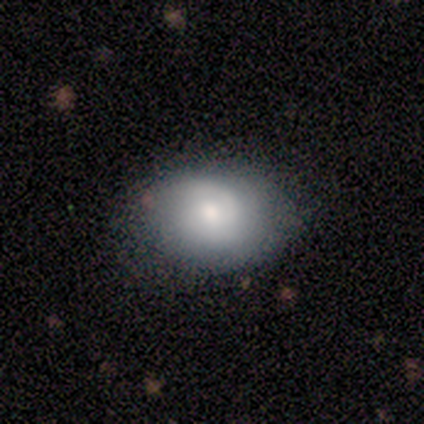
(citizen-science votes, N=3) This appears to be a smooth galaxy with no disk features (33%, tied with featured or disk and star or artifact) that is in between round and cigar-shaped (100%). Merging: none (50%, tied with minor disturbance).